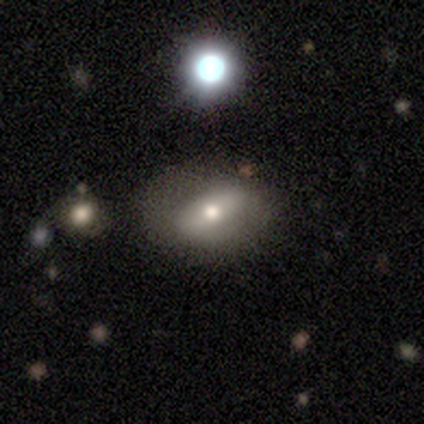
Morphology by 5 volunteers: smooth 60%, featured or disk 40%, star or artifact 0%. Down the decision tree: how rounded — in between (100%); merging — none (60%).